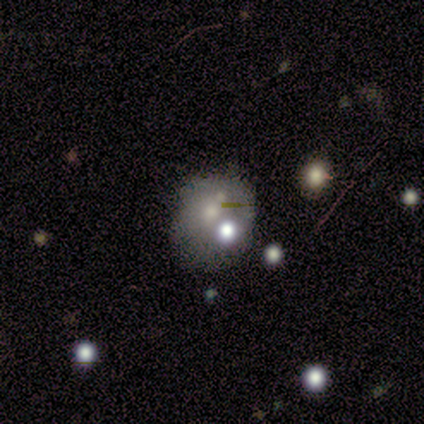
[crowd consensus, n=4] Volunteers were most divided on "smooth or featured" (2-way tie): smooth: 50%, featured or disk: 50%, star or artifact: 0%. More confident: how rounded — in between (100%); merging — none (75%).